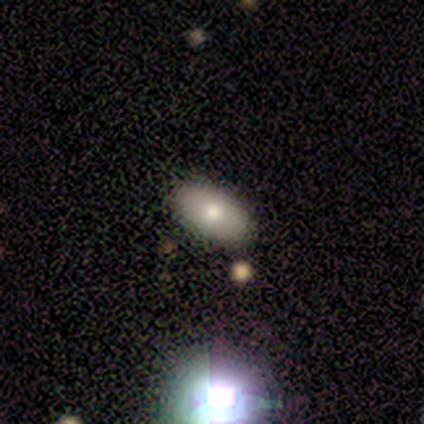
Q: Smooth or featured?
A: smooth (60%); runner-up: featured or disk (40%)
Q: How rounded?
A: in between (100%)
Q: Merging?
A: none (100%)